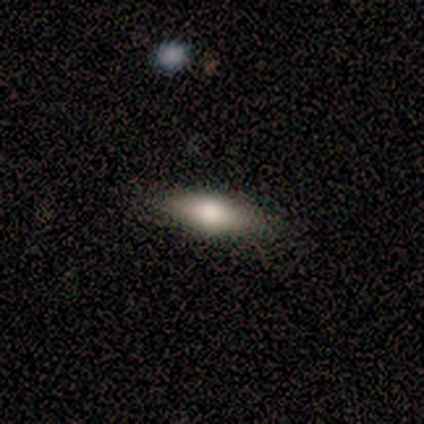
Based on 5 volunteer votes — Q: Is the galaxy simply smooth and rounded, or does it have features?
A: smooth — 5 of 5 (100%).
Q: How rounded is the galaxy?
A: cigar-shaped — 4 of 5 (80%).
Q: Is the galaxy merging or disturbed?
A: none — 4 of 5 (80%).